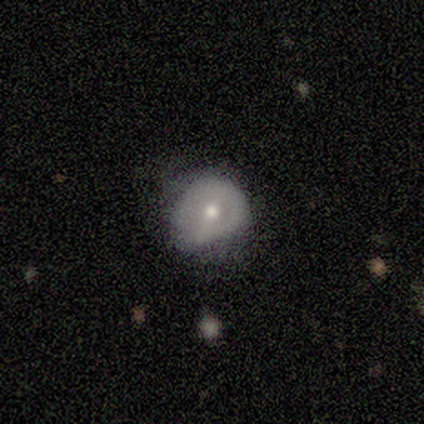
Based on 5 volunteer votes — This is likely a featured or disk galaxy (60%). It is likely not viewed edge-on (67%). Bar: clearly no (100%). Spiral arm pattern: clearly no (100%). Central bulge: possibly moderate (50%, tied with small). Merging: likely none (75%).